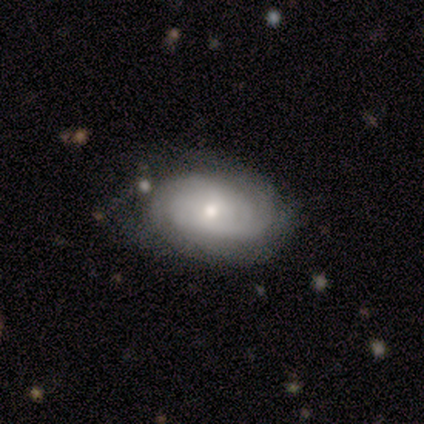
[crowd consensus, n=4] smooth_or_featured: featured or disk (p=0.75) [alt: smooth p=0.25]
disk_edge_on: no (p=1.00)
bar: no (p=0.67) [alt: weak p=0.33]
has_spiral_arms: yes (p=1.00)
spiral_winding: tight (p=0.67) [alt: loose p=0.33]
spiral_arm_count: 2 (p=0.33) [tied with: 3 p=0.33, can't tell p=0.33]
bulge_size: moderate (p=0.67) [alt: small p=0.33]
merging: none (p=1.00)